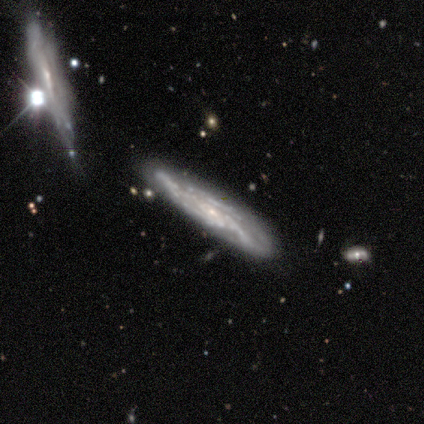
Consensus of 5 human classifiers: smooth_or_featured: featured or disk (p=1.00)
disk_edge_on: no (p=0.80) [alt: yes p=0.20]
bar: no (p=0.75) [alt: weak p=0.25]
has_spiral_arms: yes (p=1.00)
spiral_winding: tight (p=1.00)
spiral_arm_count: 3 (p=0.75) [alt: can't tell p=0.25]
bulge_size: small (p=1.00)
merging: none (p=0.80) [alt: merger p=0.20]